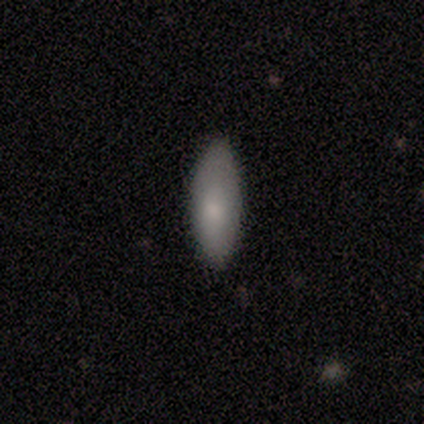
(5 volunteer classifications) smooth 80%, featured or disk 20%, star or artifact 0%. Down the decision tree: how rounded — in between (75%); merging — none (100%).